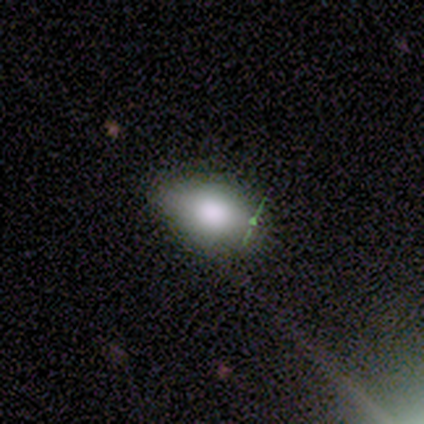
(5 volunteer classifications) smooth 100%, featured or disk 0%, star or artifact 0%. Down the decision tree: how rounded — in between (100%); merging — none (100%).